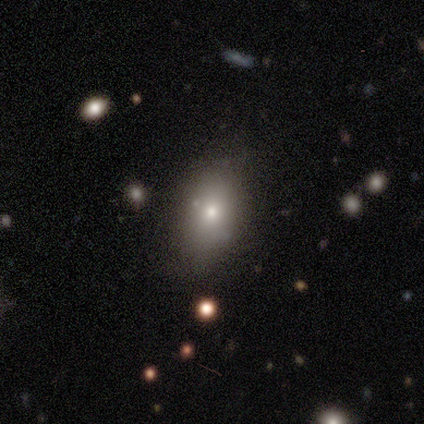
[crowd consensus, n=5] Smooth or featured: smooth — 80% (star or artifact — 20%)
How rounded: round — 50% (in between — 25%)
Merging: none — 50% (tied with major disturbance — 50%)